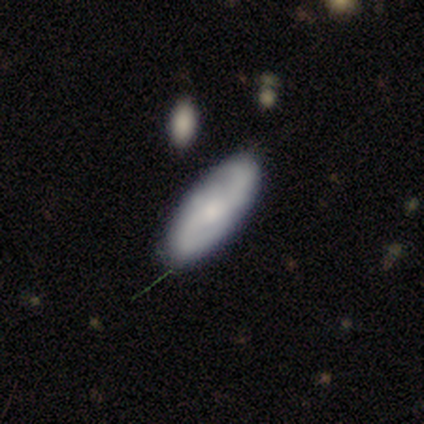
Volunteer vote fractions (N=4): This is likely a featured or disk galaxy (75%). It is clearly not viewed edge-on (100%). Bar: clearly weak (100%). Spiral arm pattern: clearly yes (100%). Spiral arm count: likely 2 (67%). Spiral winding: clearly medium (100%). Central bulge: likely small (67%). Merging: clearly none (100%).